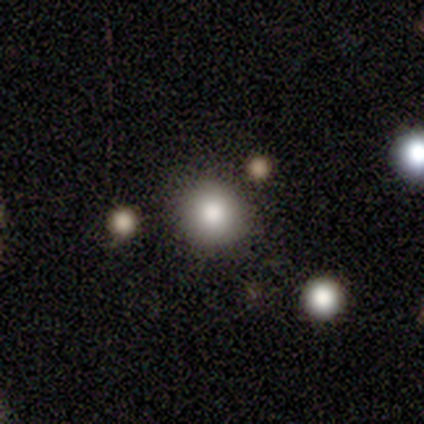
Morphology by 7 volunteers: Smooth or featured? 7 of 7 (100%) said smooth. How rounded? 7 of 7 (100%) said round. Merging? 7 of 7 (100%) said none.